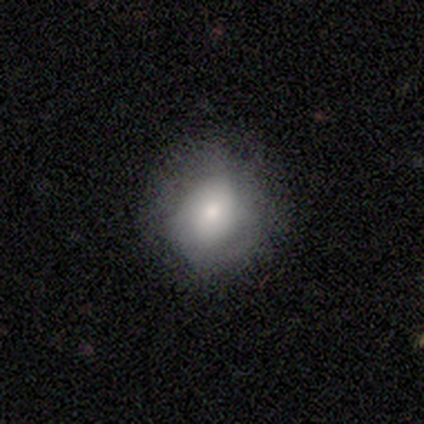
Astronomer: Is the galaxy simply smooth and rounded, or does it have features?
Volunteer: smooth — 65%.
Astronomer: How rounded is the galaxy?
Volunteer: round — 73%.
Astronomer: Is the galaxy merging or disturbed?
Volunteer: none — 65%.